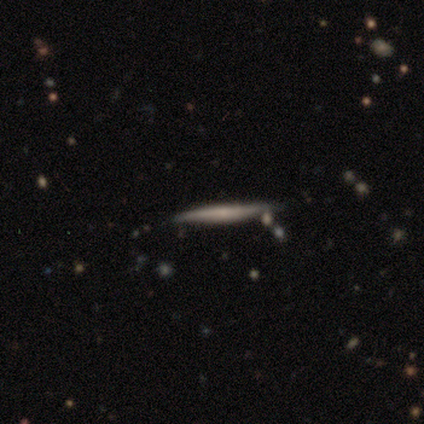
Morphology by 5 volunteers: type=featured or disk (80%); edge-on=yes (100%); edge-on bulge=none (75%); merging=none (80%).